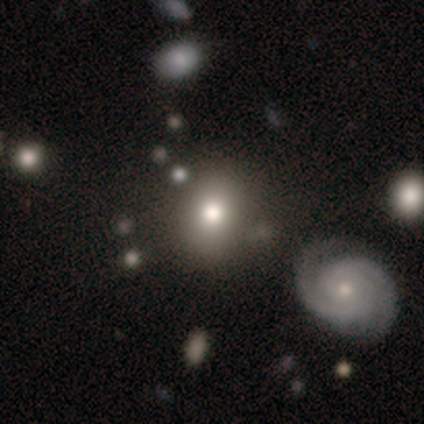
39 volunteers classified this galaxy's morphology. smooth_or_featured: smooth (p=0.69) [alt: star or artifact p=0.18]
how_rounded: round (p=0.67) [alt: in between p=0.33]
merging: none (p=0.66) [alt: minor disturbance p=0.16]